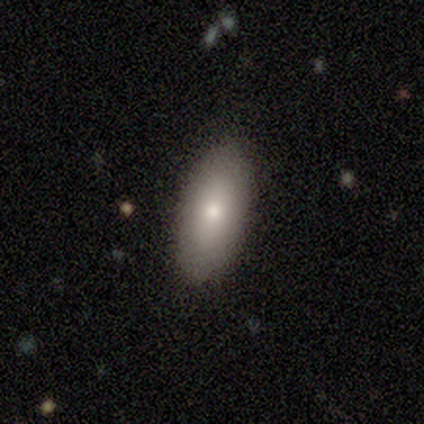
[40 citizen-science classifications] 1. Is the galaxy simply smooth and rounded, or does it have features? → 72% smooth, 25% featured or disk, 2% star or artifact.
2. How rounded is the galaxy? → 93% in between, 3% round, 3% cigar-shaped.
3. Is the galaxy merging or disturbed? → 85% none, 13% minor disturbance, 3% major disturbance, 0% merger.